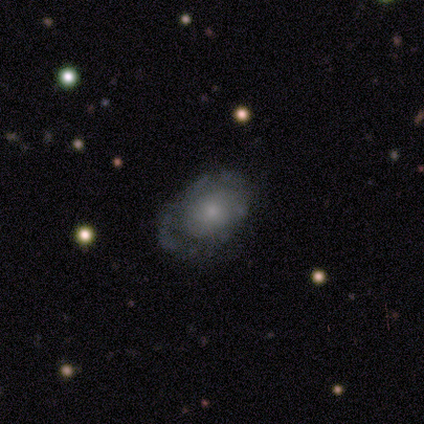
Q: Smooth or featured?
A: featured or disk (58%); runner-up: smooth (32%)
Q: Edge-on disk?
A: no (100%)
Q: Bar?
A: no (95%); runner-up: weak (5%)
Q: Spiral arms?
A: no (64%); runner-up: yes (36%)
Q: Bulge size?
A: small (41%); runner-up: moderate (36%)
Q: Merging?
A: none (62%); runner-up: minor disturbance (29%)